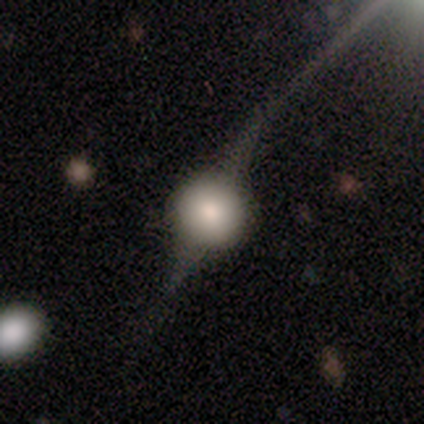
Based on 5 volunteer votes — smooth_or_featured: featured or disk (p=0.60) [alt: smooth p=0.20]
disk_edge_on: yes (p=1.00)
edge_on_bulge: rounded (p=1.00)
merging: none (p=0.75) [alt: minor disturbance p=0.25]